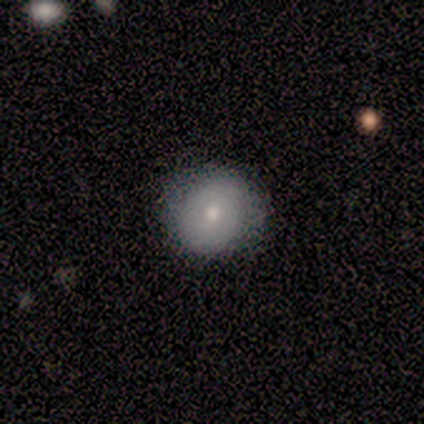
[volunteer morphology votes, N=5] Smooth or featured?
  - smooth: 80% *
  - star or artifact: 20%
  - featured or disk: 0%
How rounded?
  - round: 100% *
  - in between: 0%
  - cigar-shaped: 0%
Merging?
  - none: 50% * (tied)
  - major disturbance: 50% * (tied)
  - minor disturbance: 0%
  - merger: 0%